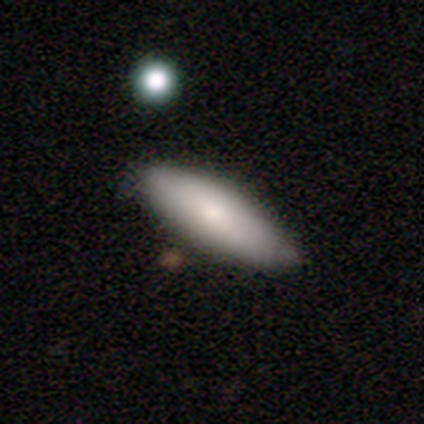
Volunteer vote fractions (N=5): Smooth or featured? smooth (100%)
How rounded? cigar-shaped (60%)
Merging? none (80%)